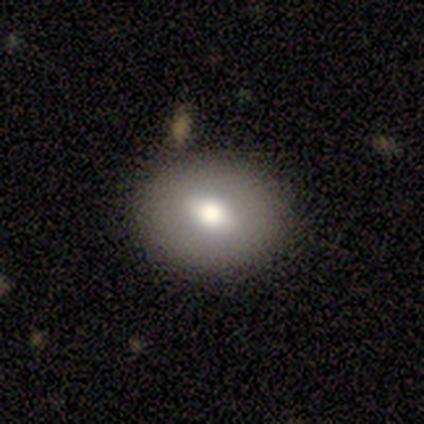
Smooth or featured? smooth (80%)
How rounded? round (50%, tied with in between)
Merging? none (80%)